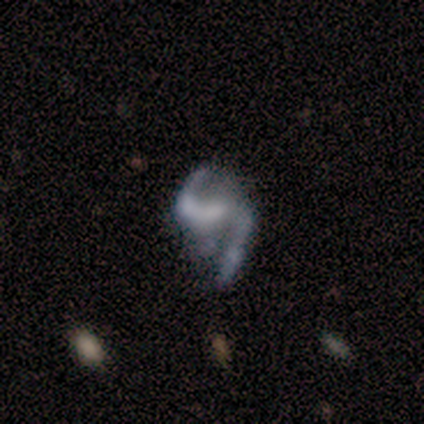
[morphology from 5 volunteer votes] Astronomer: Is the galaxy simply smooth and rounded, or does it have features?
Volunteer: featured or disk — 80%.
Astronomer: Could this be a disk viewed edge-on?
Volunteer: no — 100%.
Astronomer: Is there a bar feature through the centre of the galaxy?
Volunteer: strong — 50%.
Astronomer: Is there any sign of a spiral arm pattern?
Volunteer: yes — 100%.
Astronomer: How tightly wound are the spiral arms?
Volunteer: loose — 100%.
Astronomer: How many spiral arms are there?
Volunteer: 2 — 100%.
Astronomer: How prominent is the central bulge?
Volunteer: none — 50%.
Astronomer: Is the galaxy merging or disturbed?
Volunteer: major disturbance — 60%.